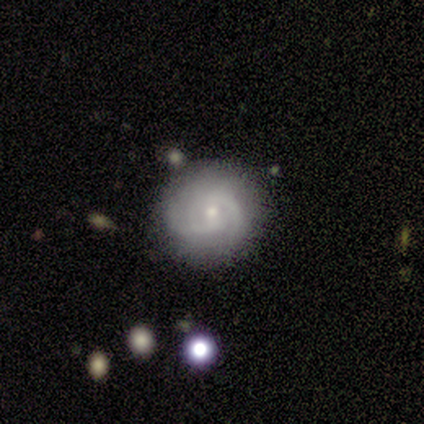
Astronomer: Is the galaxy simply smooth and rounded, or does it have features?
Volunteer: featured or disk — 71%.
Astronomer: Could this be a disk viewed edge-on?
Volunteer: no — 96%.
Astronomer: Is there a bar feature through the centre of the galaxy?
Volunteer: no — 58% (runner-up: weak, 38%).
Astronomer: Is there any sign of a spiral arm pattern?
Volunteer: yes — 85%.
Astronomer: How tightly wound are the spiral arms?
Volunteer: tight — 55% (runner-up: medium, 36%).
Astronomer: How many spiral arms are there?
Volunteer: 2 — 59%.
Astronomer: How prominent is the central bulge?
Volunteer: small — 73%.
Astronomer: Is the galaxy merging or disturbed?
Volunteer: none — 69%.